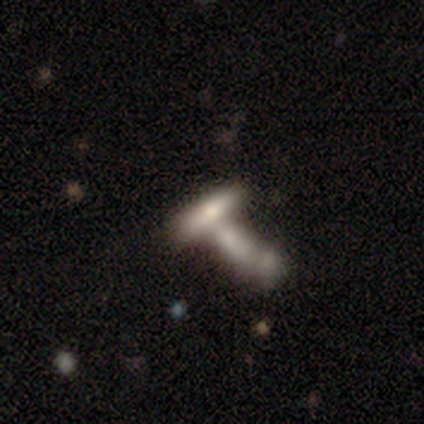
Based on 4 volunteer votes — This is clearly a smooth galaxy (100%). How rounded: clearly cigar-shaped (100%). Merging: possibly merger (50%).